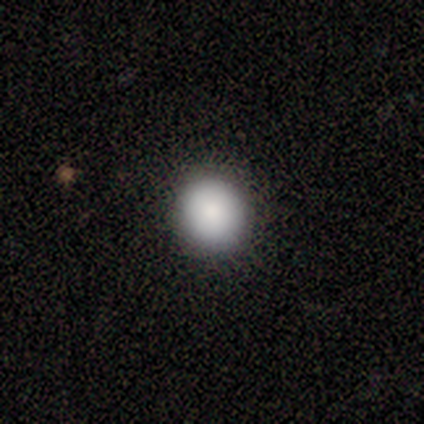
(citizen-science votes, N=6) This appears to be a smooth galaxy with no disk features (83%) that is round (100%). Merging: none (100%).